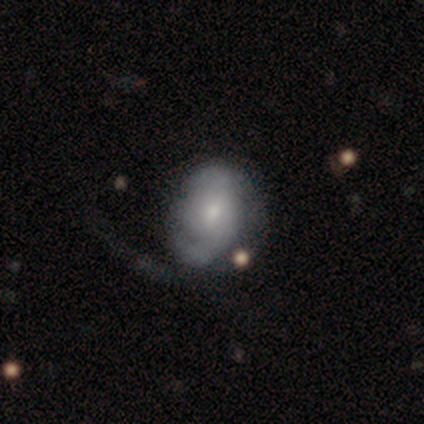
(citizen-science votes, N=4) Smooth or featured? smooth (50%, tied with featured or disk)
How rounded? in between (100%)
Merging? minor disturbance (50%)